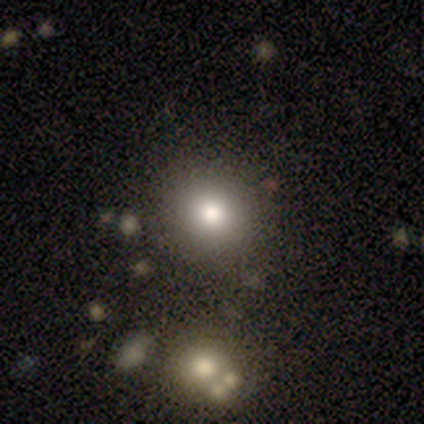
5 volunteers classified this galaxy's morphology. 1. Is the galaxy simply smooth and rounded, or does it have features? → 60% smooth, 20% featured or disk, 20% star or artifact.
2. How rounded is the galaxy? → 67% round, 33% in between, 0% cigar-shaped.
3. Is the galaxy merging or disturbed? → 100% none, 0% minor disturbance, 0% major disturbance, 0% merger.